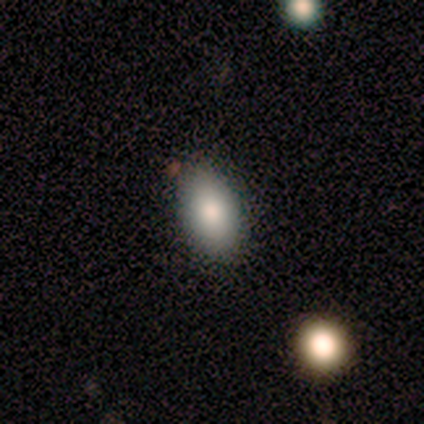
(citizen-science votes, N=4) Q: Smooth or featured?
A: smooth (75%); runner-up: featured or disk (25%)
Q: How rounded?
A: in between (67%); runner-up: round (33%)
Q: Merging?
A: none (100%)